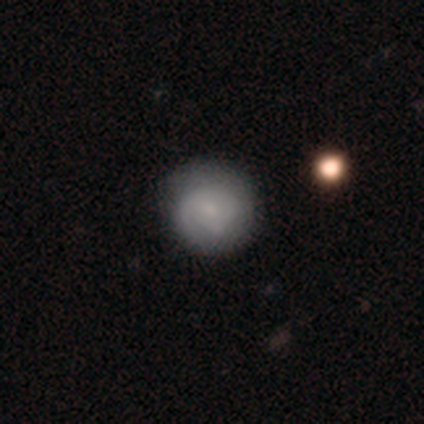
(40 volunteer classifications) Smooth or featured? 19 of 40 (48%) said smooth. How rounded? 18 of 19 (95%) said round. Merging? 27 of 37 (73%) said none.